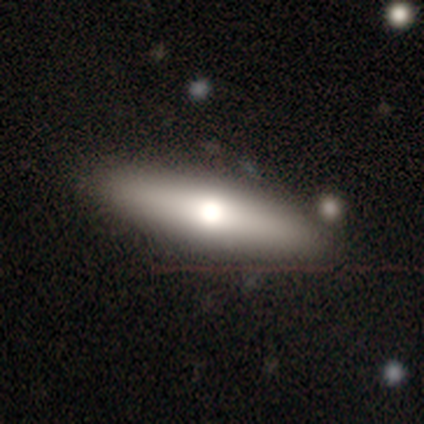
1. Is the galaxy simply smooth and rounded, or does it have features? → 60% smooth, 40% featured or disk, 0% star or artifact.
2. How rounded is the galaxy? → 67% cigar-shaped, 33% round, 0% in between.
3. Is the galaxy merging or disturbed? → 80% none, 20% major disturbance, 0% minor disturbance, 0% merger.